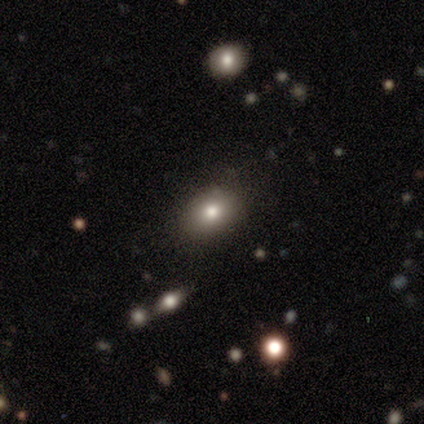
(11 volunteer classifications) Smooth or featured? 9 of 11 (82%) said smooth. How rounded? 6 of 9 (67%) said in between. Merging? 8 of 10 (80%) said none.